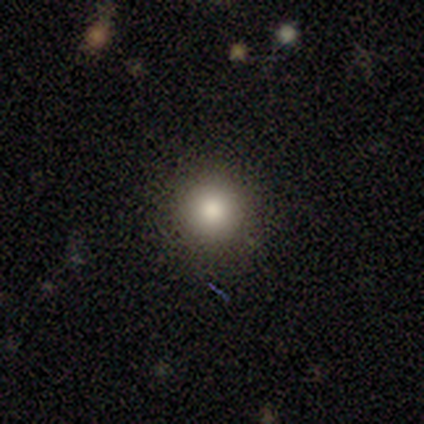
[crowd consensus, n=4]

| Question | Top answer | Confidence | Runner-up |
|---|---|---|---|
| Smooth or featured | smooth | 100% | — |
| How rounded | round | 100% | — |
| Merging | none | 75% | minor disturbance (25%) |